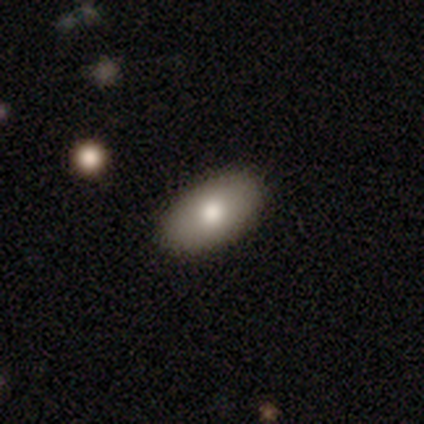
Q: Smooth or featured?
A: smooth (80%); runner-up: featured or disk (20%)
Q: How rounded?
A: in between (100%)
Q: Merging?
A: none (80%); runner-up: minor disturbance (20%)